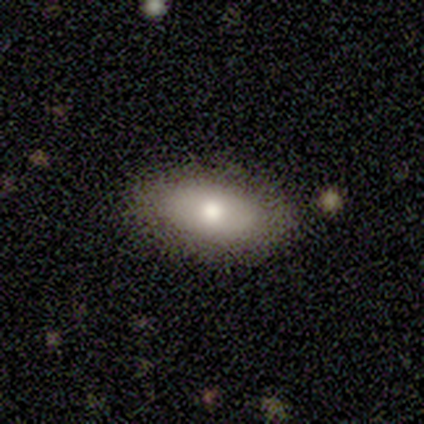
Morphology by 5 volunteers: smooth-or-featured: smooth: 40% (tied) | star or artifact: 40% (tied) | featured or disk: 20%
  how-rounded: in between: 100% | round: 0% | cigar-shaped: 0%
  merging: none: 67% | minor disturbance: 33% | major disturbance: 0% | merger: 0%